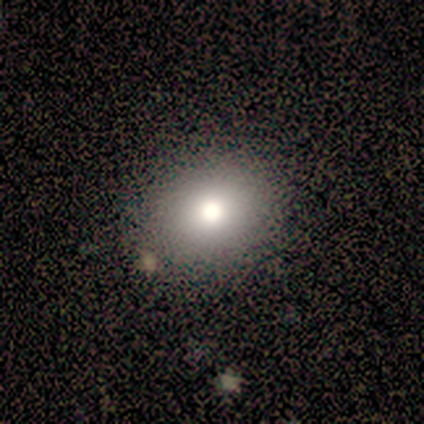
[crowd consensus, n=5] Morphology: type=smooth (80%); roundness=in between (75%); merging=none (100%).